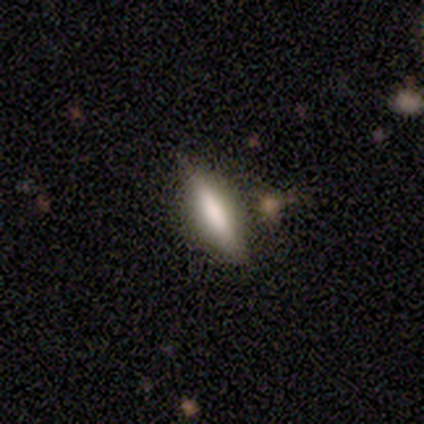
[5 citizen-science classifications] smooth-or-featured: featured or disk: 60% | smooth: 40% | star or artifact: 0%
  disk-edge-on: yes: 67% | no: 33%
    edge-on-bulge: boxy: 50% (tied) | none: 50% (tied) | rounded: 0%
  merging: none: 100% | minor disturbance: 0% | major disturbance: 0% | merger: 0%